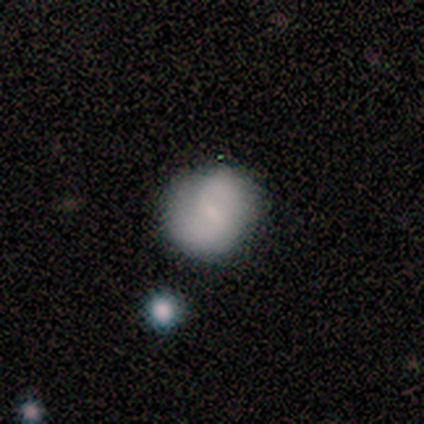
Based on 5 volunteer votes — Smooth or featured? 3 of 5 (60%) said featured or disk. Edge-on disk? 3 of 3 (100%) said no. Bar? 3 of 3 (100%) said no. Spiral arms? 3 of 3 (100%) said yes. Spiral winding? 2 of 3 (67%) said tight. Spiral arm count? 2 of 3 (67%) said can't tell. Bulge size? 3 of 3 (100%) said none. Merging? 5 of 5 (100%) said none.